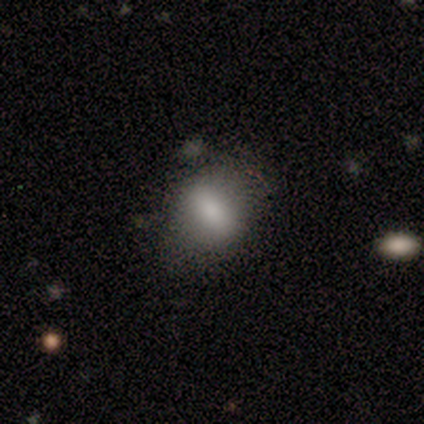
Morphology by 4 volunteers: smooth_or_featured: smooth (p=0.50) [alt: featured or disk p=0.25]
how_rounded: in between (p=1.00)
merging: none (p=0.67) [alt: minor disturbance p=0.33]